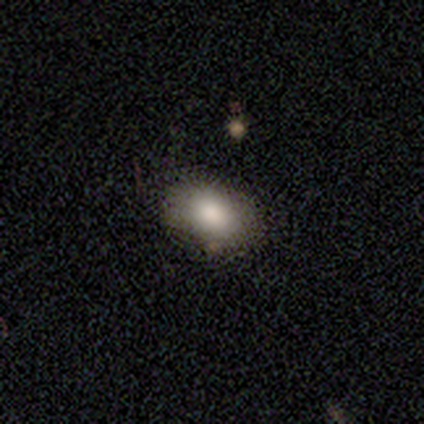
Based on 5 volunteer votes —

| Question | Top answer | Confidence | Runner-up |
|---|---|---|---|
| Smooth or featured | smooth | 80% | star or artifact (20%) |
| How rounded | round | 75% | cigar-shaped (25%) |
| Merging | none | 100% | — |